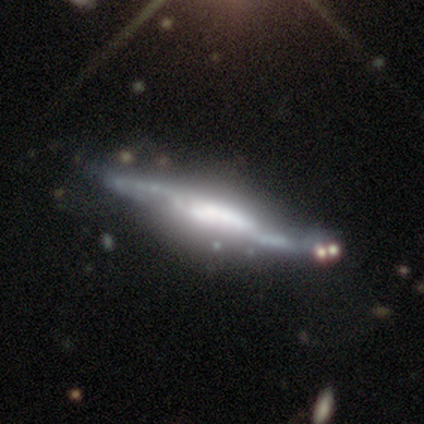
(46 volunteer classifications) Morphology: type=featured or disk (87%); edge-on=yes (78%); edge-on bulge=boxy (58%); merging=none (40%).